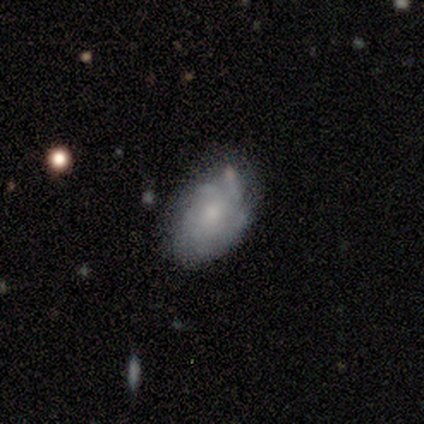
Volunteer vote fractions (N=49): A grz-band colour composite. It shows a smooth galaxy with no disk features (49%) that is in between round and cigar-shaped (79%). Merging: none (62%).